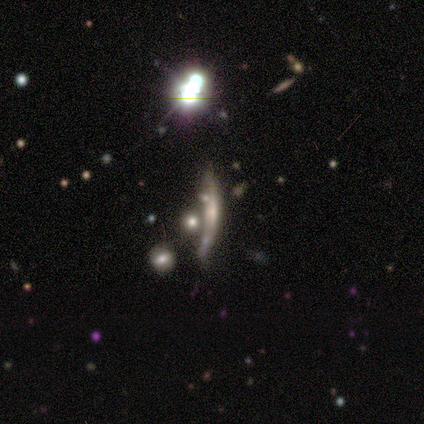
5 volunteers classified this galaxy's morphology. smooth_or_featured: featured or disk (p=0.40) [tied with: star or artifact p=0.40]
disk_edge_on: no (p=1.00)
bar: no (p=1.00)
has_spiral_arms: no (p=1.00)
bulge_size: moderate (p=1.00)
merging: merger (p=0.67) [alt: none p=0.33]